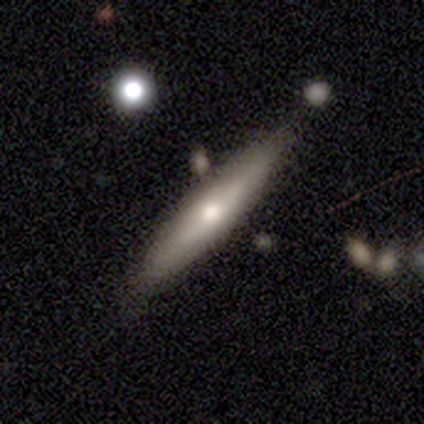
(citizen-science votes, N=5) Smooth or featured: smooth — 100%
How rounded: cigar-shaped — 80% (in between — 20%)
Merging: none — 80% (merger — 20%)